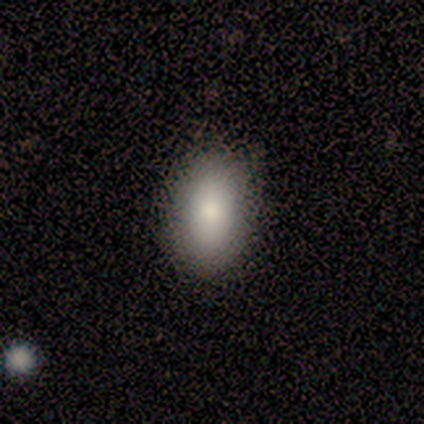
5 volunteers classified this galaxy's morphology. Volunteers were most divided on "merging": none: 60%, minor disturbance: 40%, major disturbance: 0%, merger: 0%. More confident: smooth or featured — smooth (100%); how rounded — in between (100%).